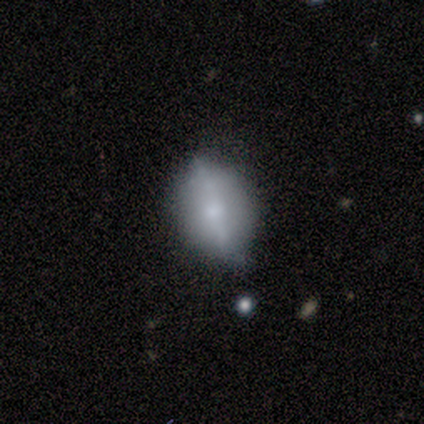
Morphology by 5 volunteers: smooth-or-featured: featured or disk: 60% | smooth: 20% | star or artifact: 20%
  disk-edge-on: yes: 67% | no: 33%
    edge-on-bulge: rounded: 100% | boxy: 0% | none: 0%
  merging: none: 50% | minor disturbance: 25% | major disturbance: 25% | merger: 0%